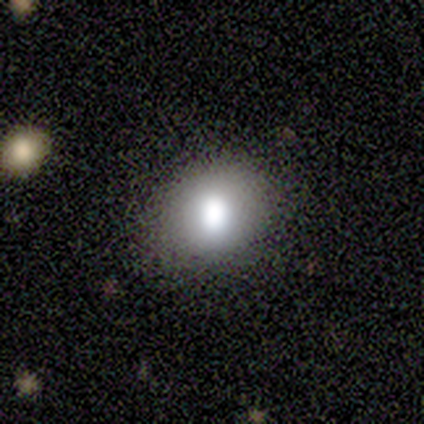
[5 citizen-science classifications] smooth 40% (tied), star or artifact 40% (tied), featured or disk 20%. Down the decision tree: how rounded — round (50%, tied with in between); merging — none (100%).